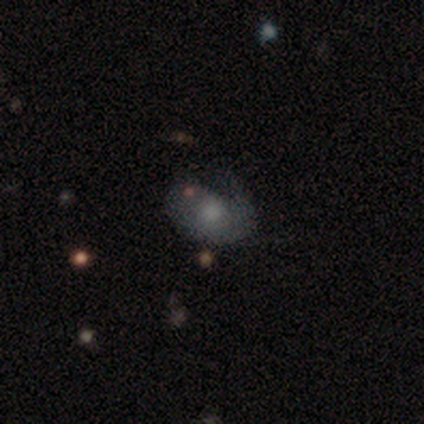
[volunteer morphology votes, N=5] smooth 80%, featured or disk 20%, star or artifact 0%. Down the decision tree: how rounded — in between (100%); merging — major disturbance (60%).